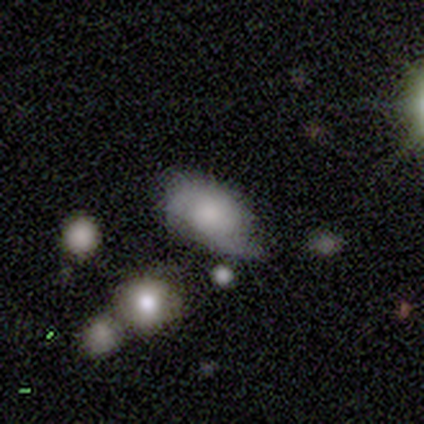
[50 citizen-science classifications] Q: Smooth or featured?
A: featured or disk (58%); runner-up: smooth (32%)
Q: Edge-on disk?
A: no (97%); runner-up: yes (3%)
Q: Bar?
A: no (93%); runner-up: weak (7%)
Q: Spiral arms?
A: yes (79%); runner-up: no (21%)
Q: Spiral winding?
A: tight (41%); tied with: medium (41%)
Q: Spiral arm count?
A: 2 (82%); runner-up: 1 (9%)
Q: Bulge size?
A: moderate (36%); runner-up: large (21%)
Q: Merging?
A: minor disturbance (51%); runner-up: none (33%)